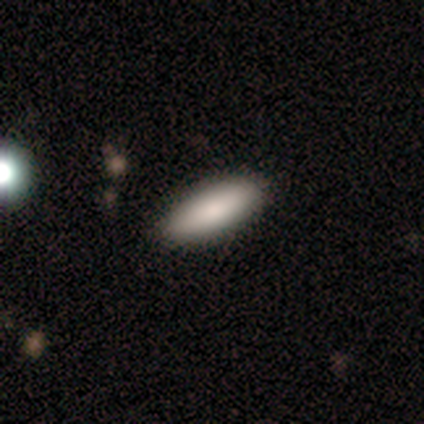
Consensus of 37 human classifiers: Smooth or featured? smooth (92%)
How rounded? in between (76%)
Merging? none (64%)